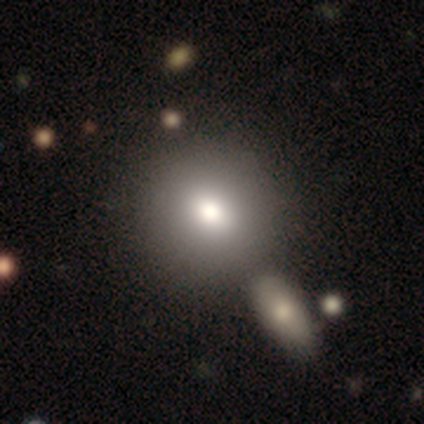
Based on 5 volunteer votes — Smooth or featured? 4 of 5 (80%) said smooth. How rounded? 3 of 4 (75%) said round. Merging? 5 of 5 (100%) said none.